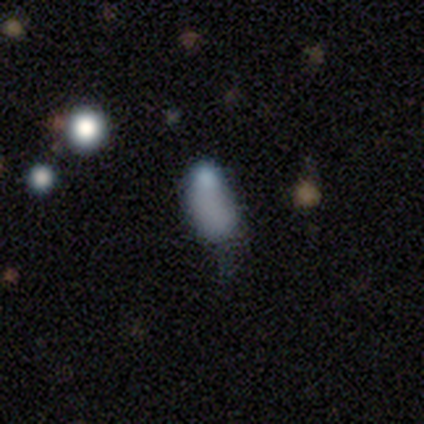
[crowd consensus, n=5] smooth 60%, star or artifact 40%, featured or disk 0%. Down the decision tree: how rounded — in between (100%); merging — minor disturbance (67%).